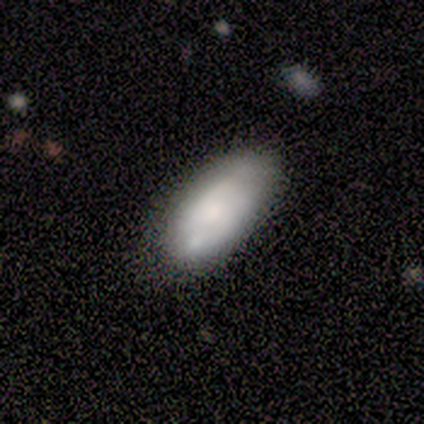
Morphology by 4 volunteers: smooth 100%, featured or disk 0%, star or artifact 0%. Down the decision tree: how rounded — in between (75%); merging — none (50%, tied with major disturbance).